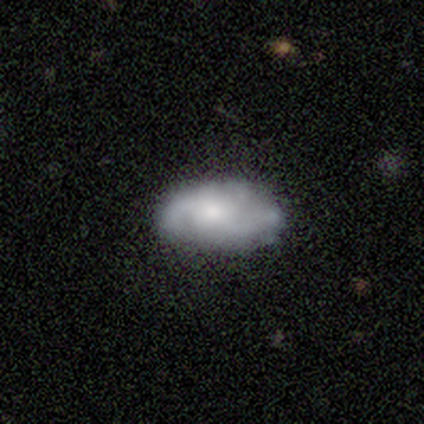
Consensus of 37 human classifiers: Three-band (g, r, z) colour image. It shows a featured or disk galaxy (65%) with no bar (81%), 2 (59%) loose (53%) spiral arms (81%) and a moderate central bulge (52%). Merging: none (60%).